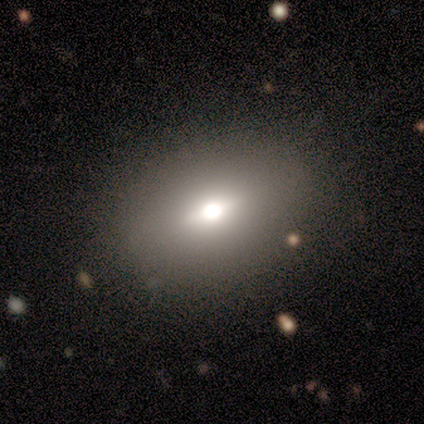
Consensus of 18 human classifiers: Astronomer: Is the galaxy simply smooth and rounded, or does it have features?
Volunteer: featured or disk — 44% (runner-up: smooth, 39%).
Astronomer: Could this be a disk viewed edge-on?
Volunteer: no — 88%.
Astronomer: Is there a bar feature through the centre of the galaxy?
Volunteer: no — 71%.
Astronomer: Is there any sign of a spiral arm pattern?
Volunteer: no — 100%.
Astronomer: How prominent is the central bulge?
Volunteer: moderate — 57%.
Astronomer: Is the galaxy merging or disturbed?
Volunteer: none — 87%.